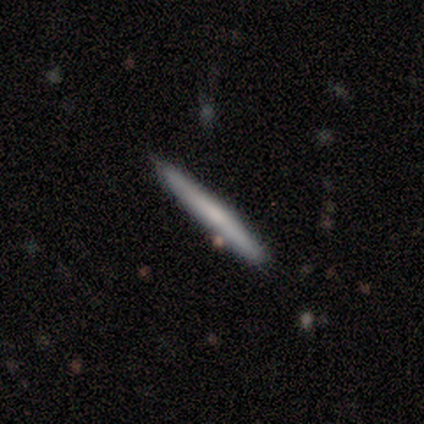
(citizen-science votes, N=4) Q: Smooth or featured?
A: smooth (50%); tied with: featured or disk (50%)
Q: How rounded?
A: cigar-shaped (100%)
Q: Merging?
A: none (100%)